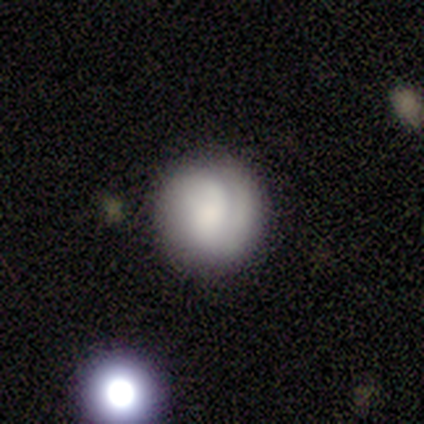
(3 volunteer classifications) smooth 67%, featured or disk 33%, star or artifact 0%. Down the decision tree: how rounded — round (100%); merging — none (100%).